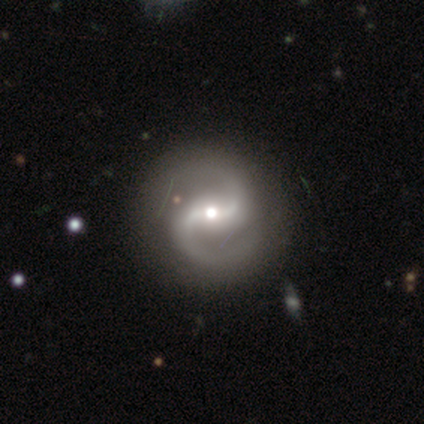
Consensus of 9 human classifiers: This appears to be a featured or disk galaxy (100%) with a weak bar (56%), 2 (100%) loose (56%) spiral arms (100%) and a moderate central bulge (56%). Merging: none (89%).